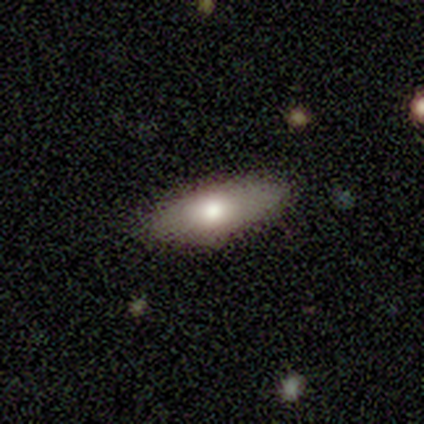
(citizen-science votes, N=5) This is likely a smooth galaxy (60%). How rounded: clearly in between (100%). Merging: likely none (75%).